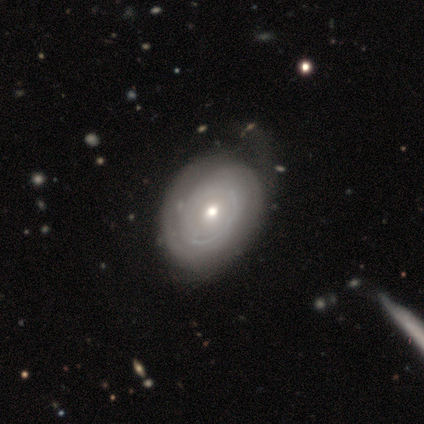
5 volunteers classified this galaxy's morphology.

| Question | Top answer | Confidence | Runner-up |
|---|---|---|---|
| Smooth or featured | featured or disk | 100% | — |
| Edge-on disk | no | 100% | — |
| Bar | no | 100% | — |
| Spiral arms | no | 60% | yes (40%) |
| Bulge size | moderate | 80% | small (20%) |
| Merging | none | 40% | tied: minor disturbance (40%) |